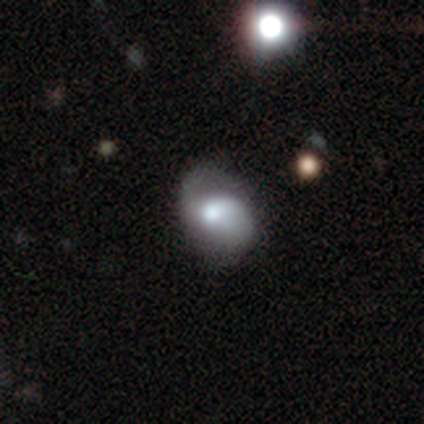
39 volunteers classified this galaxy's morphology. Smooth or featured? 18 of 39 (46%) said smooth. How rounded? 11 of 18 (61%) said in between. Merging? 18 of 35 (51%) said none.